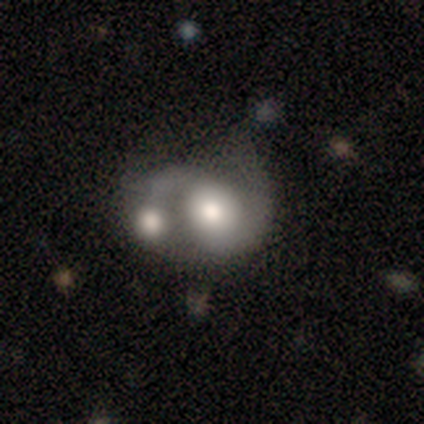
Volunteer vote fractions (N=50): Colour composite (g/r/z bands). It shows a featured or disk galaxy (70%) with no bar (79%), 2 (81%) medium (46%) spiral arms (79%) and a moderate central bulge (45%). Merging: merger (79%).